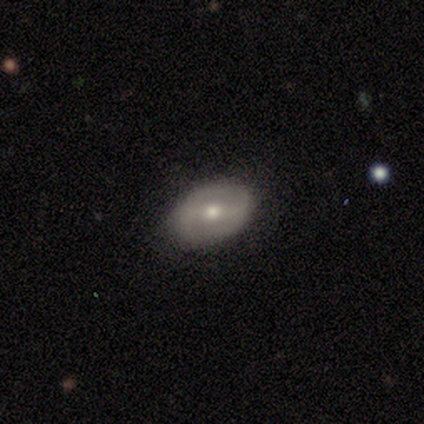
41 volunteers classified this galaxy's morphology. Smooth or featured? featured or disk (56%)
Edge-on disk? no (91%)
Bar? weak (52%)
Spiral arms? no (62%)
Bulge size? moderate (67%)
Merging? none (87%)